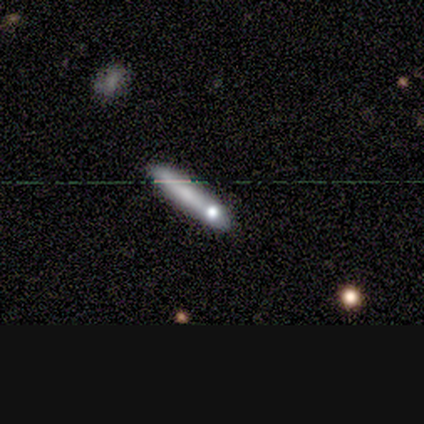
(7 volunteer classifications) This appears to be a smooth galaxy with no disk features (57%) that is cigar-shaped (100%). Merging: none (67%).